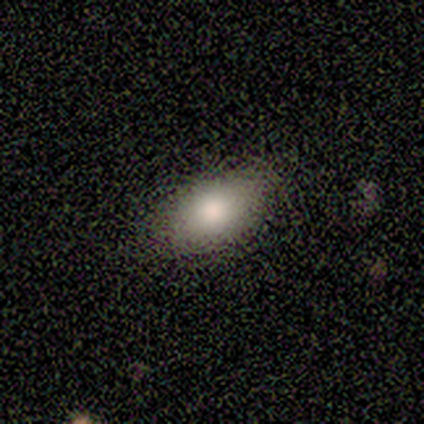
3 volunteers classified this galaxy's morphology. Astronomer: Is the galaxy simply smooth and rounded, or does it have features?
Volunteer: smooth — 100%.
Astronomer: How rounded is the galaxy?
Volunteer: in between — 67%.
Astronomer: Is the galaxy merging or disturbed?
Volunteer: none — 100%.